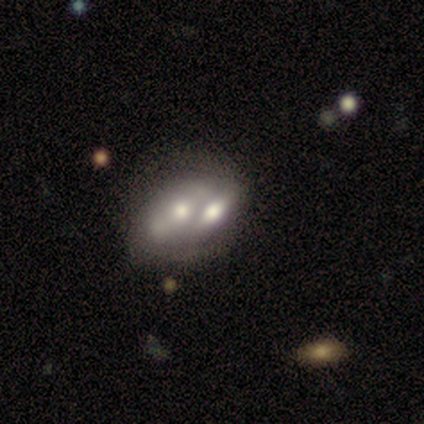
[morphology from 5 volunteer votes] smooth 80%, featured or disk 20%, star or artifact 0%. Down the decision tree: how rounded — in between (100%); merging — merger (80%).